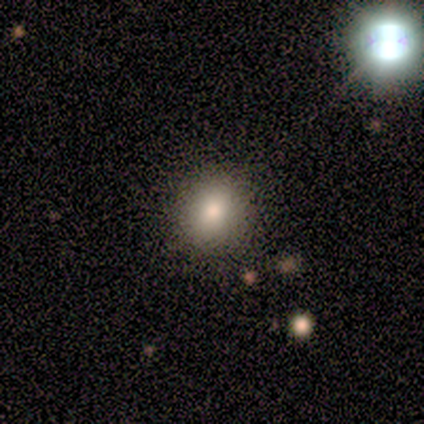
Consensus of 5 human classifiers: Q: Smooth or featured?
A: smooth (100%)
Q: How rounded?
A: round (80%); runner-up: in between (20%)
Q: Merging?
A: none (100%)